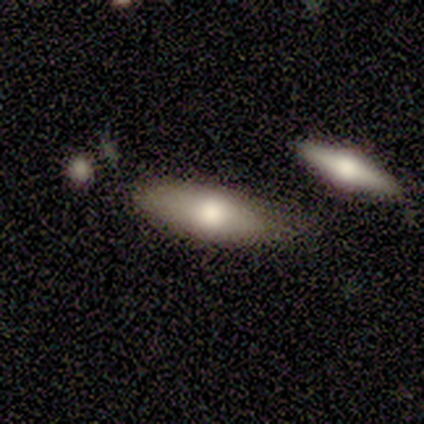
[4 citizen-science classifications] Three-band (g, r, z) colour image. It shows a smooth galaxy with no disk features (50%, tied with featured or disk) that is in between round and cigar-shaped (100%). Merging: none (50%, tied with minor disturbance).